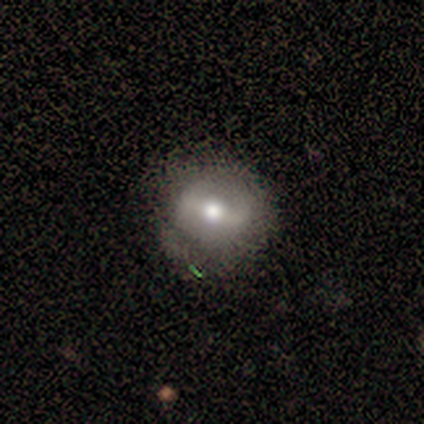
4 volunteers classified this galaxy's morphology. This appears to be a smooth galaxy with no disk features (50%, tied with featured or disk) that is round (100%). Merging: none (50%, tied with minor disturbance).